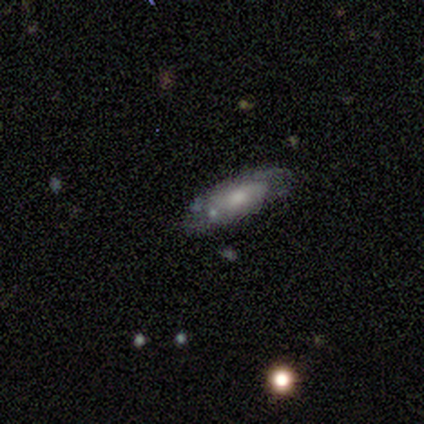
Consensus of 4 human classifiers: Morphology: type=smooth (50%, tied with featured or disk); roundness=round (50%, tied with in between); merging=none (50%, tied with minor disturbance).